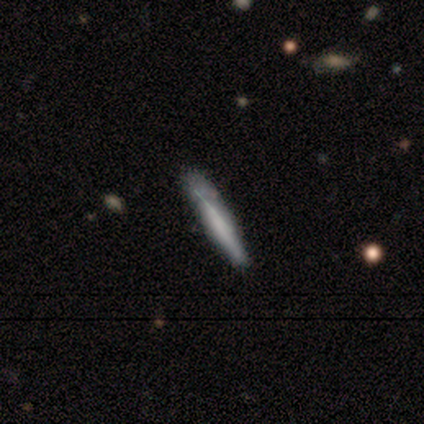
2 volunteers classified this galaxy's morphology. This is clearly a smooth galaxy (100%). How rounded: possibly in between (50%, tied with cigar-shaped). Merging: clearly none (100%).